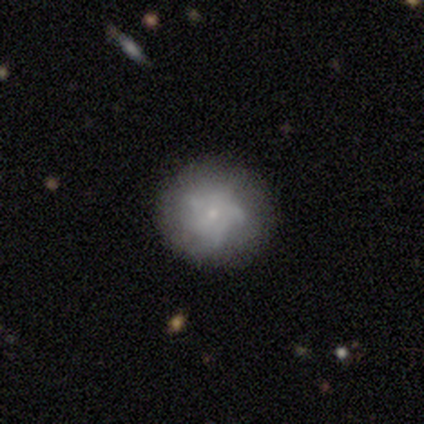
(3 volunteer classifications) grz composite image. It shows a featured or disk galaxy (67%) with no bar (100%), more than 4 (50%, tied with can't tell) medium (100%) spiral arms (100%) and a small central bulge (100%). Merging: minor disturbance (100%).